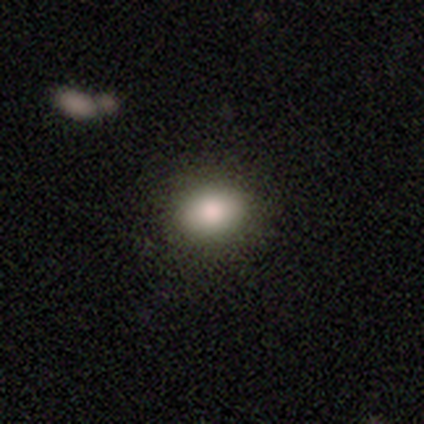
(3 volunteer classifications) This is clearly a smooth galaxy (100%). How rounded: clearly round (100%). Merging: clearly none (100%).